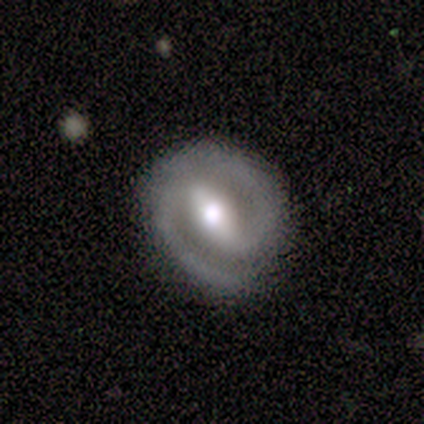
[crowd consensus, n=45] Overall: featured or disk (87%). Edge-on disk: no (95%). Bar: strong (65%; weak 27%). Spiral arms: yes (100%). Spiral arm count: 2 (86%). Spiral winding: medium (49%; tight 43%). Bulge size: moderate (59%; large 30%). Merging: none (81%).